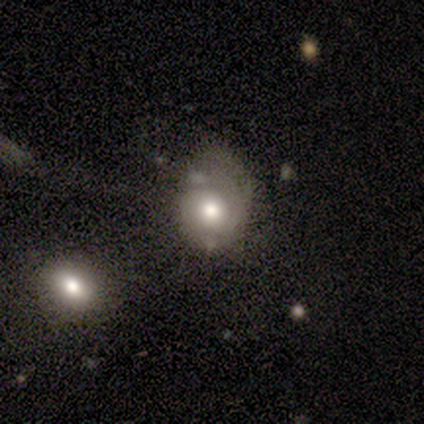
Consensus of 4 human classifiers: smooth-or-featured: smooth: 50% | featured or disk: 25% | star or artifact: 25%
  how-rounded: in between: 100% | round: 0% | cigar-shaped: 0%
  merging: none: 67% | minor disturbance: 33% | major disturbance: 0% | merger: 0%